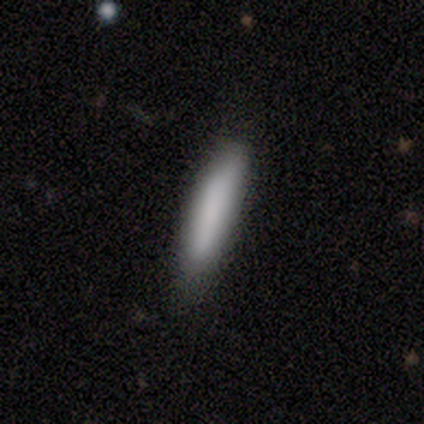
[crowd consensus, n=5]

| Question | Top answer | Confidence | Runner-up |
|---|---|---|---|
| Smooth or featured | smooth | 80% | star or artifact (20%) |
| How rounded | cigar-shaped | 100% | — |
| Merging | none | 75% | minor disturbance (25%) |